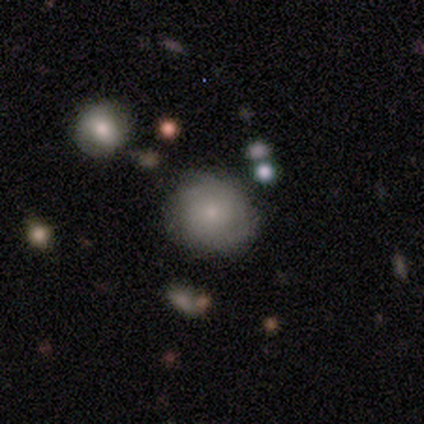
Smooth or featured? smooth (63%)
How rounded? round (96%)
Merging? none (74%)